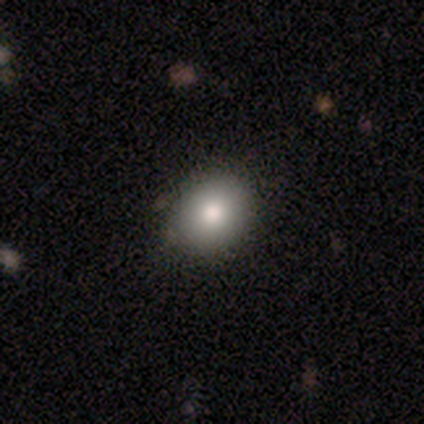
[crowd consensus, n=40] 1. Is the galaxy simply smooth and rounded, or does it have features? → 80% smooth, 15% featured or disk, 5% star or artifact.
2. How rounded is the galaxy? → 84% round, 16% in between, 0% cigar-shaped.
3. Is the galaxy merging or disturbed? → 92% none, 5% minor disturbance, 3% merger, 0% major disturbance.